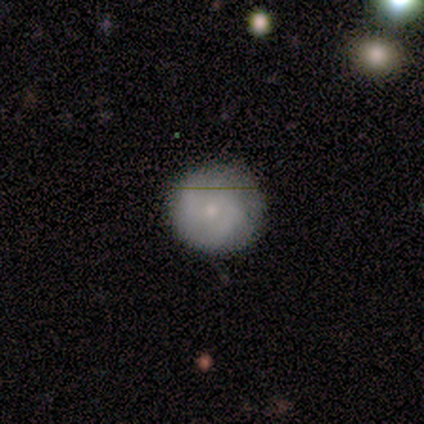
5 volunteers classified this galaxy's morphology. smooth 80%, featured or disk 20%, star or artifact 0%. Down the decision tree: how rounded — round (100%); merging — none (80%).